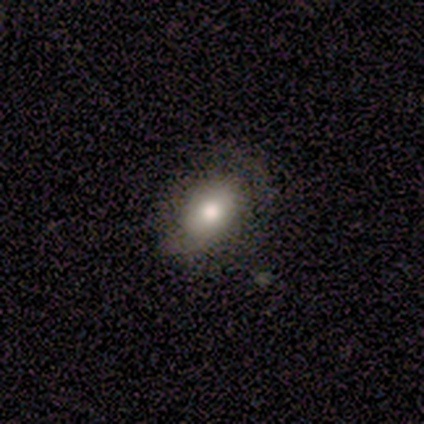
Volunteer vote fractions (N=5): smooth 60%, featured or disk 40%, star or artifact 0%. Down the decision tree: how rounded — in between (100%); merging — none (80%).